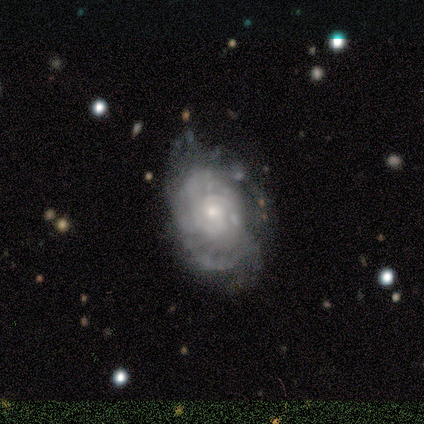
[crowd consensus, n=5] This appears to be a featured or disk galaxy (80%) with no bar (100%), tight (100%) spiral arms (50%, tied with no) and a small central bulge (100%). Merging: none (50%).